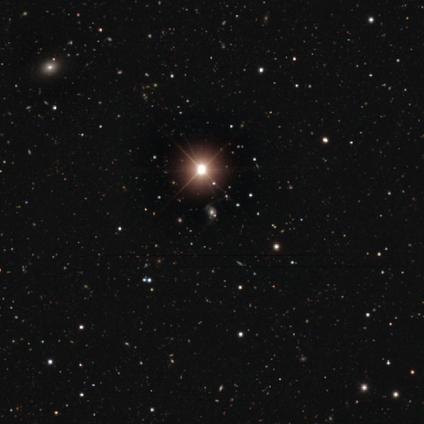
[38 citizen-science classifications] A star or artifact, not a galaxy (89%).